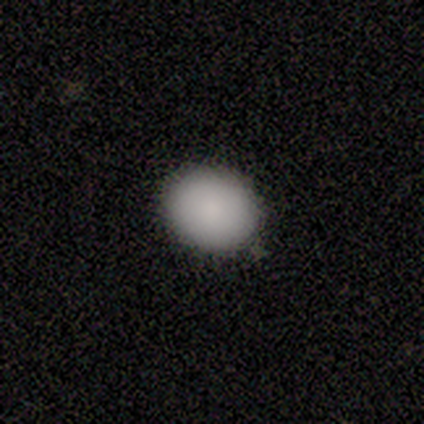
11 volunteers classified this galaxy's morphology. A smooth galaxy with no disk features (100%) that is round (73%). Merging: none (82%).